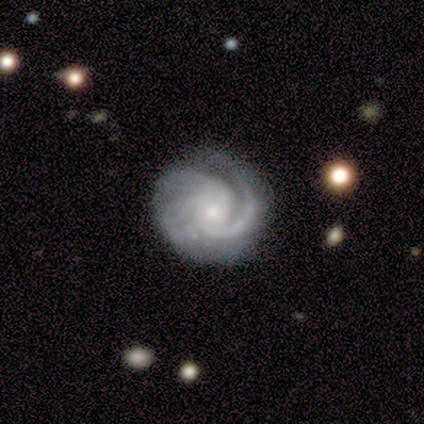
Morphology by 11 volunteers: Smooth or featured?
  - featured or disk: 91% *
  - smooth: 9%
  - star or artifact: 0%
Edge-on disk?
  - no: 100% *
  - yes: 0%
Bar?
  - no: 90% *
  - strong: 10%
  - weak: 0%
Spiral arms?
  - yes: 100% *
  - no: 0%
Spiral winding?
  - tight: 80% *
  - medium: 20%
  - loose: 0%
Spiral arm count?
  - 3: 50% *
  - 2: 30%
  - 1: 20%
  - 4: 0%
  - more than 4: 0%
  - can't tell: 0%
Bulge size?
  - small: 60% *
  - moderate: 30%
  - large: 10%
  - dominant: 0%
  - none: 0%
Merging?
  - none: 64% *
  - minor disturbance: 18%
  - major disturbance: 9%
  - merger: 9%